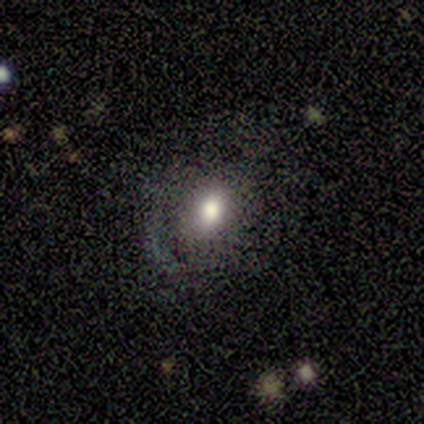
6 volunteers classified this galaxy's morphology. Smooth or featured? smooth (50%, tied with featured or disk)
How rounded? round (67%)
Merging? none (50%)